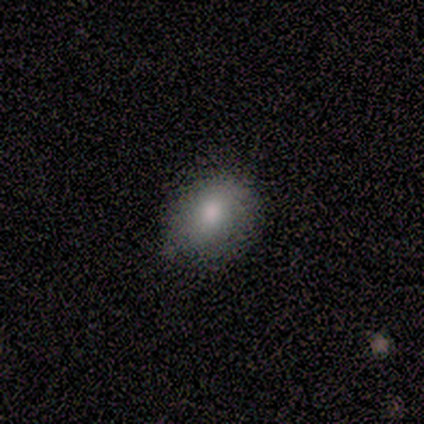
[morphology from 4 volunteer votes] smooth-or-featured: smooth: 50% | featured or disk: 25% | star or artifact: 25%
  how-rounded: in between: 100% | round: 0% | cigar-shaped: 0%
  merging: none: 67% | minor disturbance: 33% | major disturbance: 0% | merger: 0%